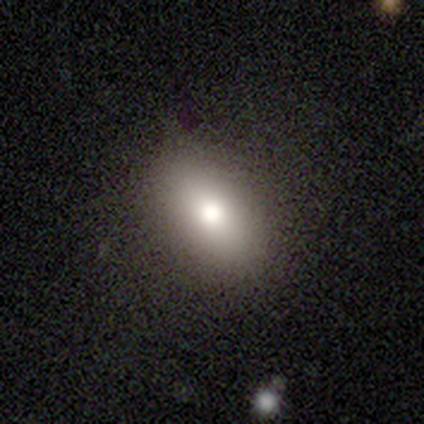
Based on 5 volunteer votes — A smooth galaxy with no disk features (100%) that is in between round and cigar-shaped (80%). Merging: none (100%).